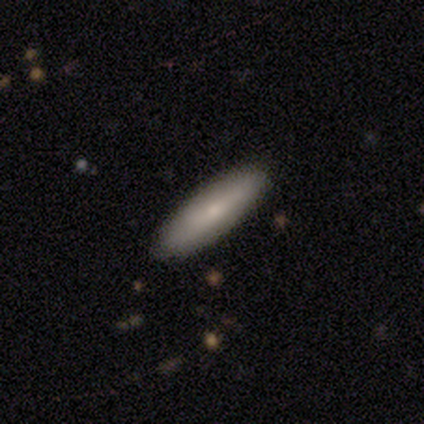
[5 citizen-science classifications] Volunteers were most divided on "how rounded" (2-way tie): in between: 50%, cigar-shaped: 50%, round: 0%. More confident: smooth or featured — smooth (80%); merging — none (80%).